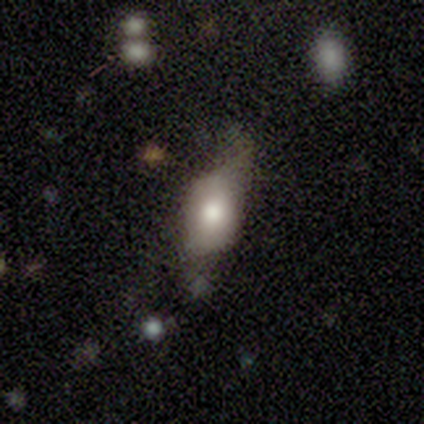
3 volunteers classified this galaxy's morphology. Smooth or featured? featured or disk (67%)
Edge-on disk? no (100%)
Bar? no (100%)
Spiral arms? no (100%)
Bulge size? moderate (100%)
Merging? minor disturbance (67%)